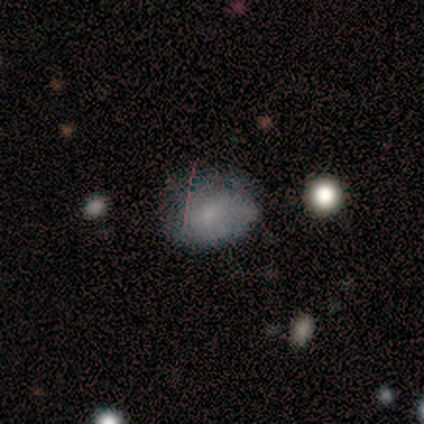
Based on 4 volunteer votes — Morphology: type=smooth (75%); roundness=in between (67%); merging=none (67%).